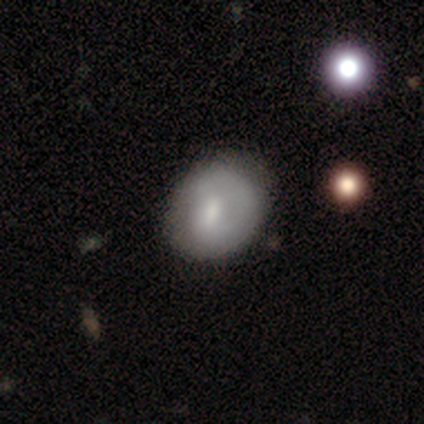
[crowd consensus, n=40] smooth-or-featured: smooth: 68% | featured or disk: 32% | star or artifact: 0%
  how-rounded: round: 59% | in between: 41% | cigar-shaped: 0%
  merging: none: 57% | minor disturbance: 20% | major disturbance: 8% | merger: 2%